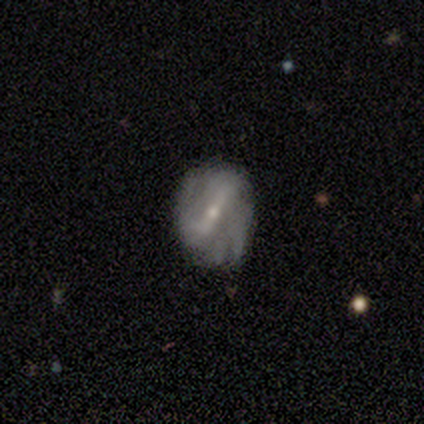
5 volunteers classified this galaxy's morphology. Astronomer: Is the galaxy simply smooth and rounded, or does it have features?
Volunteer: featured or disk — 80%.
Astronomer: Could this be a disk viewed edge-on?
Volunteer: no — 100%.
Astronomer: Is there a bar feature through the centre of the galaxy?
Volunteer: strong — 75%.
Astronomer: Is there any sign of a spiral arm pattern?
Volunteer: yes — 75%.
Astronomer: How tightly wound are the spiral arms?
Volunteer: tight — 67%.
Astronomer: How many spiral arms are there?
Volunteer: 2 — 67%.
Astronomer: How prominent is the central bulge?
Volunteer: small — 75%.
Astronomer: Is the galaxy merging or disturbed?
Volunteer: none — 80%.